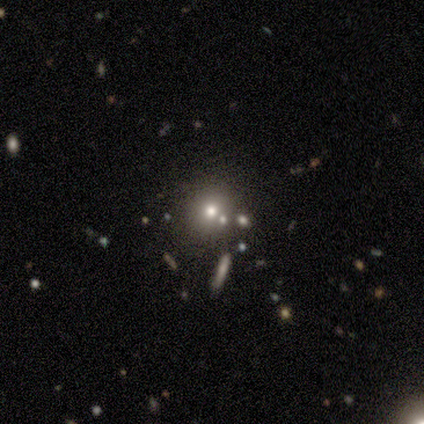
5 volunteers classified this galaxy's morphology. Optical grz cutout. It shows a star or artifact, not a galaxy (60%).